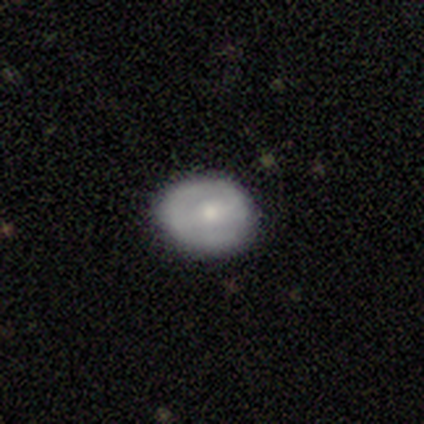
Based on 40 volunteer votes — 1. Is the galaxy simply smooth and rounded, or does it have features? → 55% smooth, 42% featured or disk, 2% star or artifact.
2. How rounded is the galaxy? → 55% in between, 45% round, 0% cigar-shaped.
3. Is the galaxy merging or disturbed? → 77% none, 21% minor disturbance, 3% merger, 0% major disturbance.